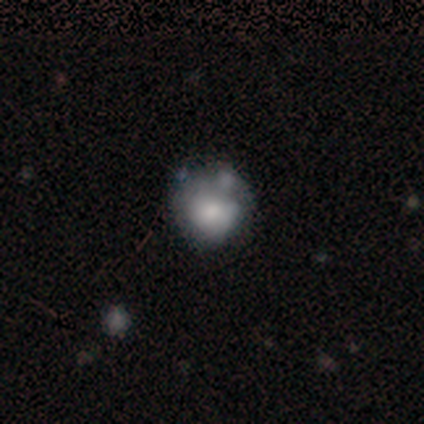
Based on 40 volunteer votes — smooth 60%, star or artifact 22%, featured or disk 18%. Down the decision tree: how rounded — round (79%); merging — none (45%).